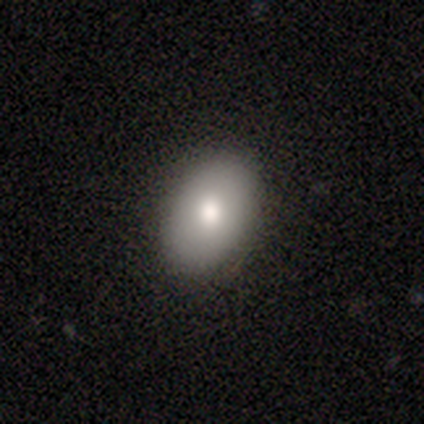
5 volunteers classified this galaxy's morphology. This is clearly a smooth galaxy (80%). How rounded: likely in between (75%). Merging: clearly none (100%).